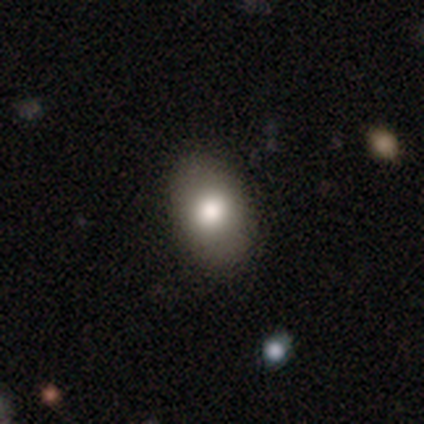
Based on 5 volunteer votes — Volunteers were most divided on "smooth or featured": smooth: 60%, featured or disk: 20%, star or artifact: 20%. More confident: how rounded — in between (100%); merging — none (100%).